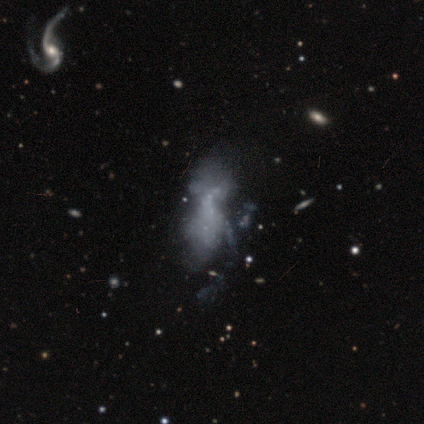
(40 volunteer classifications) featured or disk 65%, smooth 18%, star or artifact 18%. Down the decision tree: edge-on disk — no (96%); bar — no (92%); spiral arms — no (80%); bulge size — none (92%); merging — major disturbance (27%).